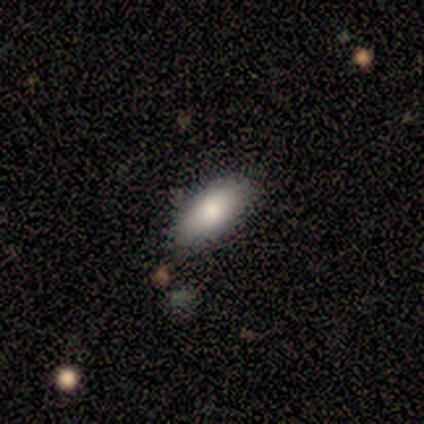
smooth 80%, star or artifact 20%, featured or disk 0%. Down the decision tree: how rounded — in between (100%); merging — none (100%).